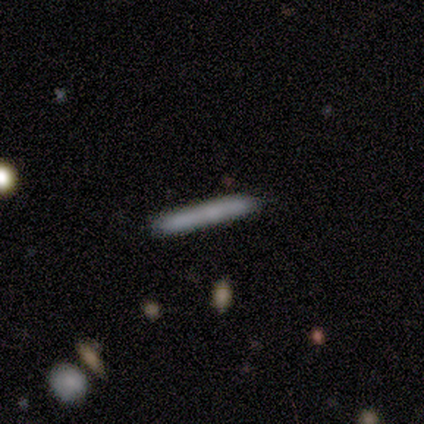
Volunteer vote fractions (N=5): Smooth or featured?
  - smooth: 80% *
  - featured or disk: 20%
  - star or artifact: 0%
How rounded?
  - cigar-shaped: 100% *
  - round: 0%
  - in between: 0%
Merging?
  - none: 100% *
  - minor disturbance: 0%
  - major disturbance: 0%
  - merger: 0%